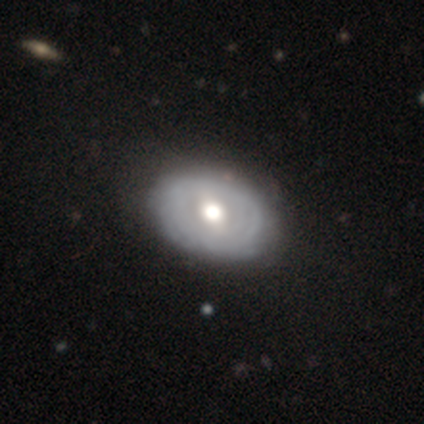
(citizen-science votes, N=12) Smooth or featured? 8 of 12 (67%) said featured or disk. Edge-on disk? 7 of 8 (88%) said no. Bar? 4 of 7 (57%) said no. Spiral arms? 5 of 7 (71%) said no. Bulge size? 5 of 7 (71%) said moderate. Merging? 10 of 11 (91%) said none.